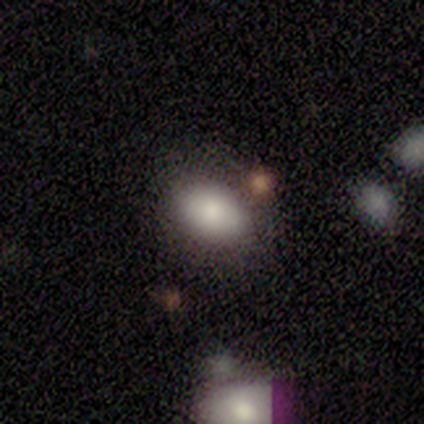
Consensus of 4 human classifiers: This is possibly a smooth galaxy (50%, tied with featured or disk). How rounded: clearly in between (100%). Merging: clearly none (100%).